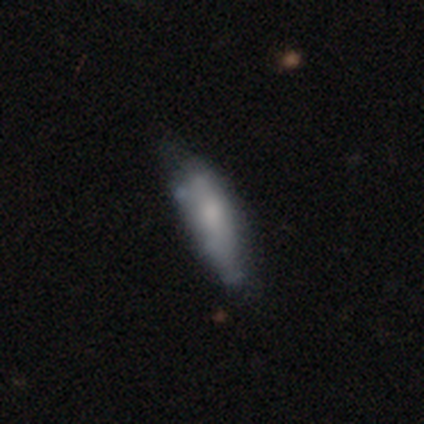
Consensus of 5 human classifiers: Smooth or featured?
  - featured or disk: 60% *
  - smooth: 20%
  - star or artifact: 20%
Edge-on disk?
  - no: 67% *
  - yes: 33%
Bar?
  - no: 100% *
  - strong: 0%
  - weak: 0%
Spiral arms?
  - no: 100% *
  - yes: 0%
Bulge size?
  - small: 50% * (tied)
  - none: 50% * (tied)
  - dominant: 0%
  - large: 0%
  - moderate: 0%
Merging?
  - minor disturbance: 50% *
  - none: 25%
  - major disturbance: 25%
  - merger: 0%